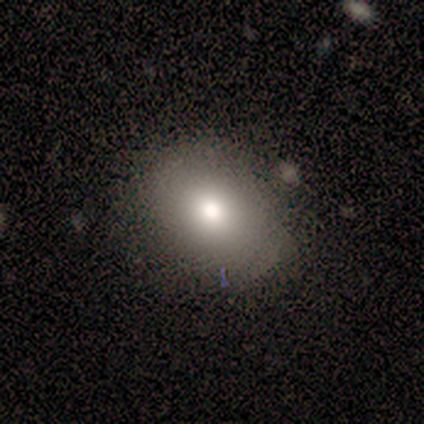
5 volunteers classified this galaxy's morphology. smooth-or-featured: smooth: 100% | featured or disk: 0% | star or artifact: 0%
  how-rounded: round: 60% | in between: 40% | cigar-shaped: 0%
  merging: none: 60% | minor disturbance: 40% | major disturbance: 0% | merger: 0%